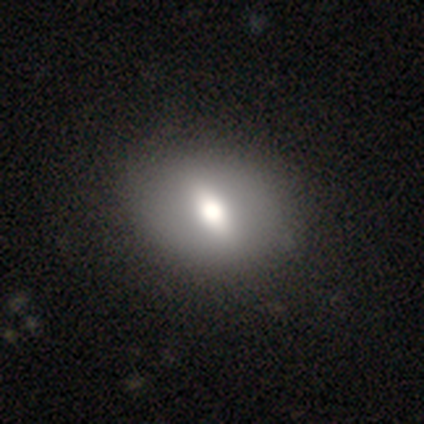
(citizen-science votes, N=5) A smooth galaxy with no disk features (60%) that is in between round and cigar-shaped (67%).

Vote fractions:
- Smooth or featured? smooth: 60% / featured or disk: 40% / star or artifact: 0%
- How rounded? in between: 67% / round: 33% / cigar-shaped: 0%
- Merging? none: 100% / minor disturbance: 0% / major disturbance: 0% / merger: 0%